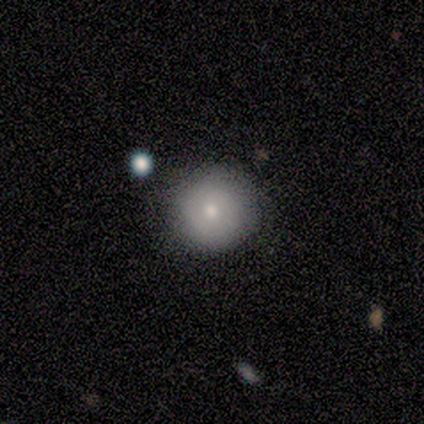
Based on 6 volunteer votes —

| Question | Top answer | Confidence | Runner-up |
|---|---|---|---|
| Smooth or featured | smooth | 83% | featured or disk (17%) |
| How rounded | round | 100% | — |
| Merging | none | 100% | — |